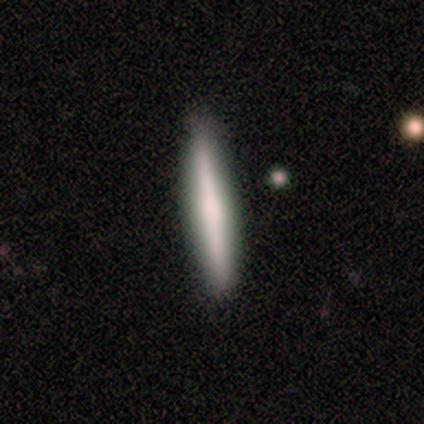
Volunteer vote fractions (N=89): Smooth or featured? 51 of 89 (57%) said smooth. How rounded? 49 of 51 (96%) said cigar-shaped. Merging? 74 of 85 (87%) said none.